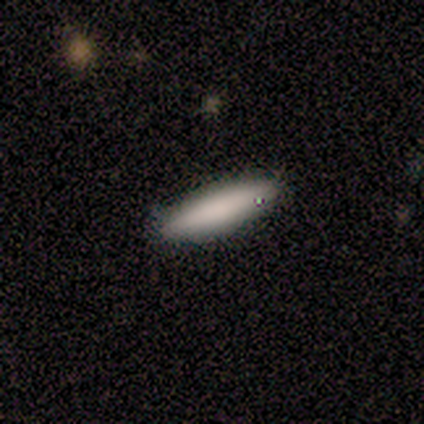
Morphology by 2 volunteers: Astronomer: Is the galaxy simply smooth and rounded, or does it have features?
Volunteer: smooth — 100%.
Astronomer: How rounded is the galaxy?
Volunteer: in between — 50%, tied with cigar-shaped at 50%.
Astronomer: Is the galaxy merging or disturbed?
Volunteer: none — 100%.